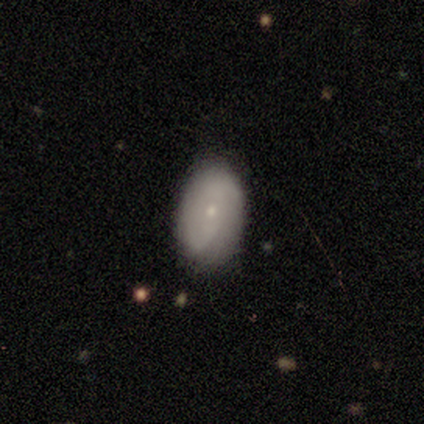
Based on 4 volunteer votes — Overall: featured or disk (50%; smooth 25%). Edge-on disk: no (100%). Bar: no (100%). Spiral arms: yes (50%, tied with no). Spiral arm count: can't tell (100%). Spiral winding: tight (100%). Bulge size: small (100%). Merging: minor disturbance (100%).